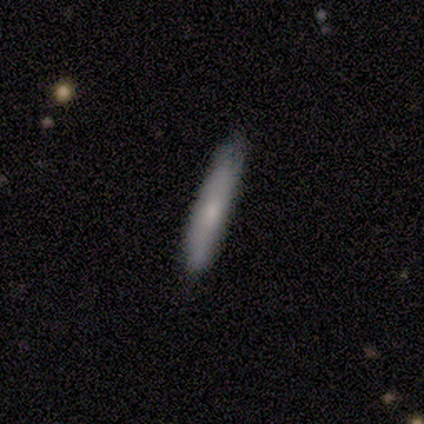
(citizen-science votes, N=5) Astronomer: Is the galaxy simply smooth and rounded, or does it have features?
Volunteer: smooth — 80%.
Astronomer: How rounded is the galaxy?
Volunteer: cigar-shaped — 75%.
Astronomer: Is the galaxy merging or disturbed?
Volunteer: none — 80%.